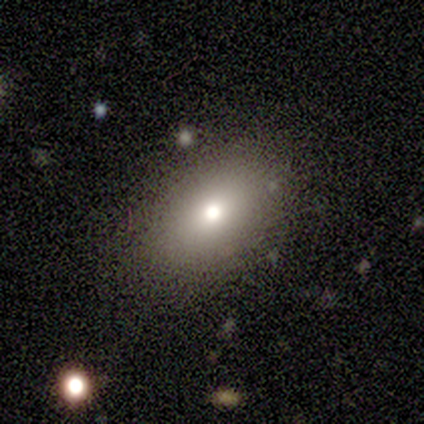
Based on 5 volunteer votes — A smooth galaxy with no disk features (60%) that is in between round and cigar-shaped (100%). Merging: none (50%).